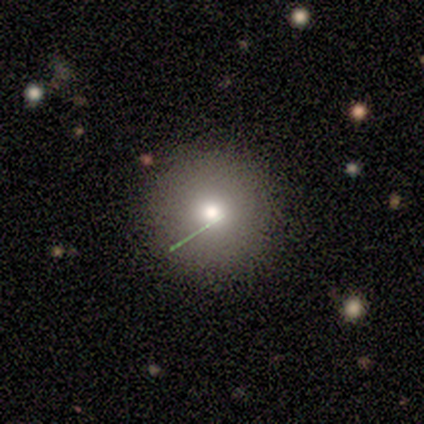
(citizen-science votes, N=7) This is clearly a smooth galaxy (100%). How rounded: clearly round (86%). Merging: clearly none (100%).